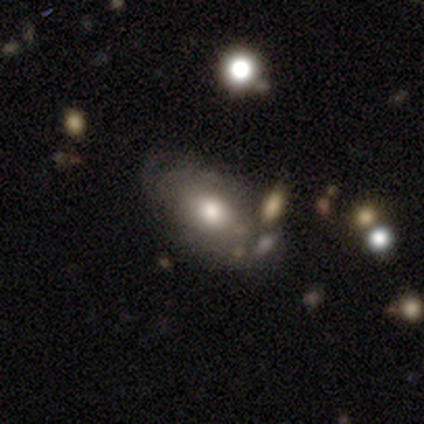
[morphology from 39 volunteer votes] A smooth galaxy with no disk features (51%) that is in between round and cigar-shaped (75%).

Vote fractions:
- Smooth or featured? smooth: 51% / featured or disk: 36% / star or artifact: 13%
- How rounded? in between: 75% / round: 25% / cigar-shaped: 0%
- Merging? none: 56% / major disturbance: 18% / merger: 18% / minor disturbance: 9%